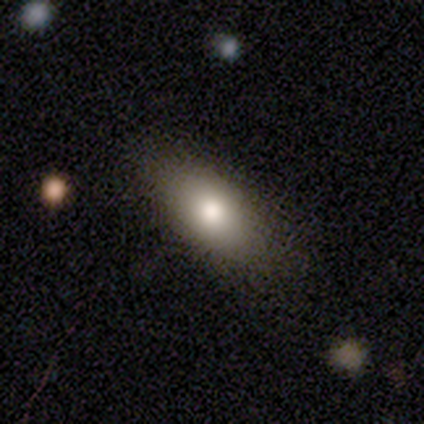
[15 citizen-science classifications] Overall: smooth (87%). How rounded: in between (85%). Merging: none (87%).